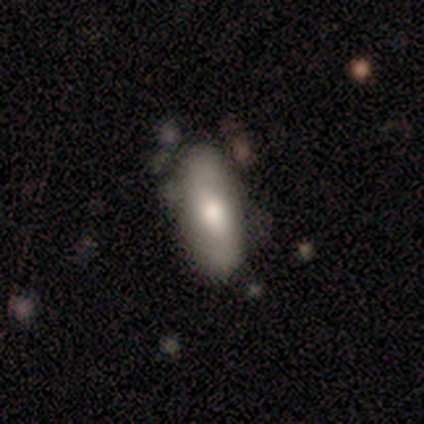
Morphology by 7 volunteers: Overall: smooth (71%). How rounded: in between (80%). Merging: none (71%).